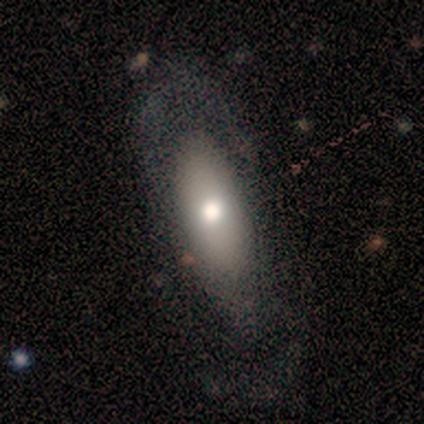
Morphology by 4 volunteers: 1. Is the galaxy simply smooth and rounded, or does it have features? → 75% featured or disk, 25% smooth, 0% star or artifact.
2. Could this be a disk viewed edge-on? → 67% yes, 33% no.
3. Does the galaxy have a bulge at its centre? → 100% rounded, 0% boxy, 0% none.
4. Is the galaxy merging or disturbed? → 50% none, 25% minor disturbance, 25% major disturbance, 0% merger.